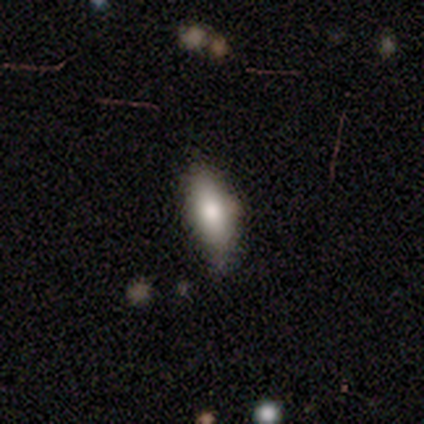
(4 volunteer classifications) Morphology: type=smooth (50%); roundness=in between (50%, tied with cigar-shaped); merging=none (100%).